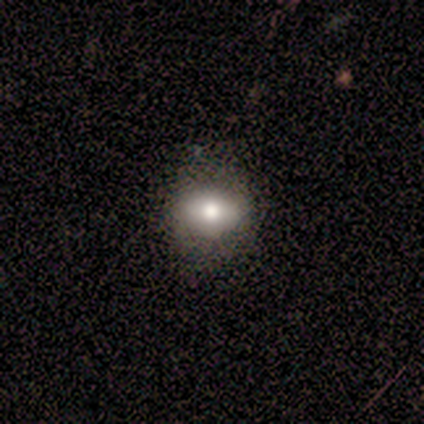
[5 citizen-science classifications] Smooth or featured: smooth — 80% (star or artifact — 20%)
How rounded: in between — 75% (round — 25%)
Merging: none — 100%